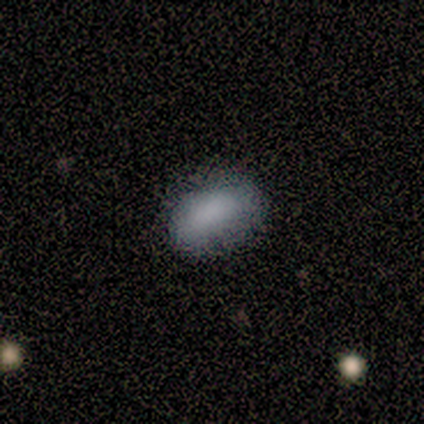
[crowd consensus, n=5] This is clearly a smooth galaxy (100%). How rounded: clearly in between (100%). Merging: clearly none (100%).